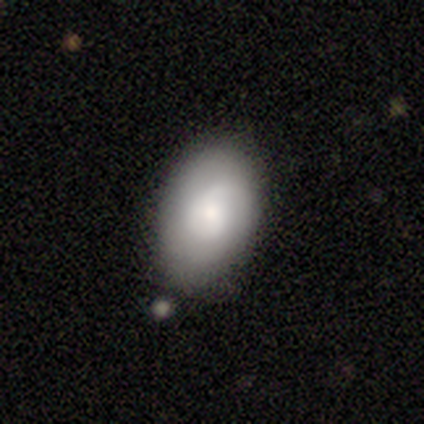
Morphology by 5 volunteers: Q: Smooth or featured?
A: smooth (60%); runner-up: featured or disk (20%)
Q: How rounded?
A: in between (100%)
Q: Merging?
A: none (75%); runner-up: minor disturbance (25%)